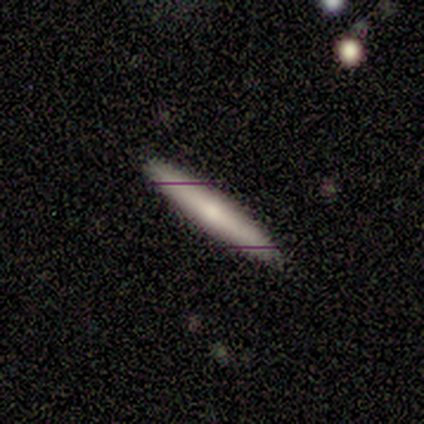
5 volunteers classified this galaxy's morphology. A smooth galaxy with no disk features (60%) that is cigar-shaped (100%).

Vote fractions:
- Smooth or featured? smooth: 60% / featured or disk: 20% / star or artifact: 20%
- How rounded? cigar-shaped: 100% / round: 0% / in between: 0%
- Merging? none: 100% / minor disturbance: 0% / major disturbance: 0% / merger: 0%